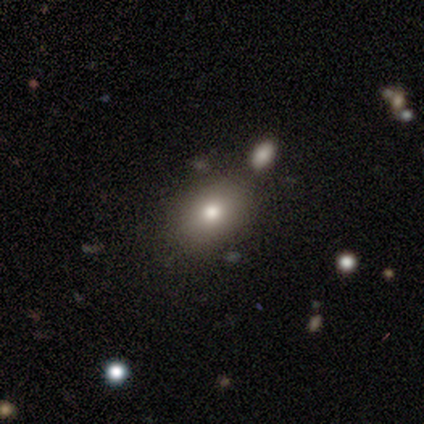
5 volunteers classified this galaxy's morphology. A smooth galaxy with no disk features (60%) that is in between round and cigar-shaped (100%).

Vote fractions:
- Smooth or featured? smooth: 60% / featured or disk: 20% / star or artifact: 20%
- How rounded? in between: 100% / round: 0% / cigar-shaped: 0%
- Merging? none: 75% / minor disturbance: 25% / major disturbance: 0% / merger: 0%